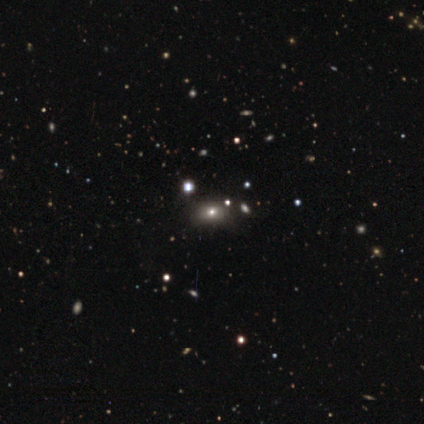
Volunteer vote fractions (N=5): smooth 80%, star or artifact 20%, featured or disk 0%. Down the decision tree: how rounded — in between (100%); merging — none (50%).